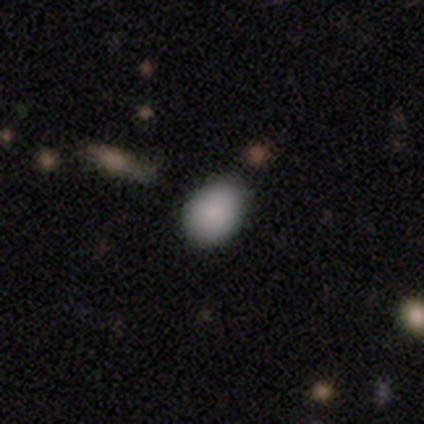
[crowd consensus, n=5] A smooth galaxy with no disk features (80%) that is round (50%, tied with in between). Merging: none (75%).